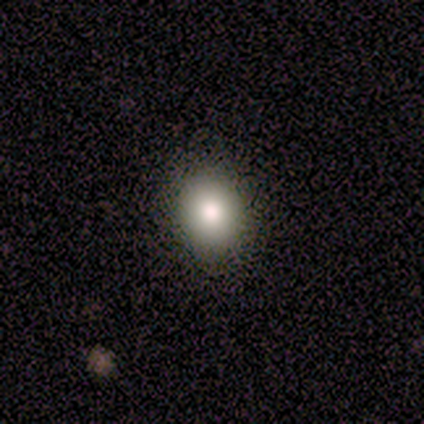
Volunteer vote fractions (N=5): Smooth or featured? smooth (80%)
How rounded? round (75%)
Merging? none (75%)